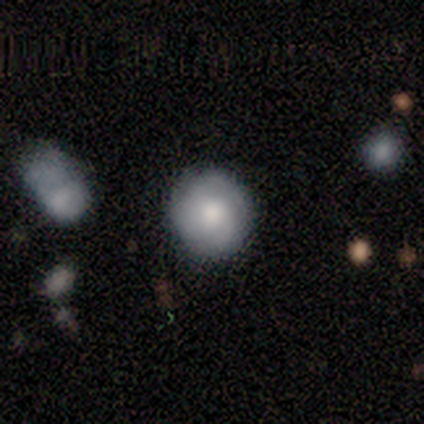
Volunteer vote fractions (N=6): Q: Smooth or featured?
A: smooth (50%); tied with: featured or disk (50%)
Q: How rounded?
A: round (100%)
Q: Merging?
A: none (83%); runner-up: minor disturbance (17%)